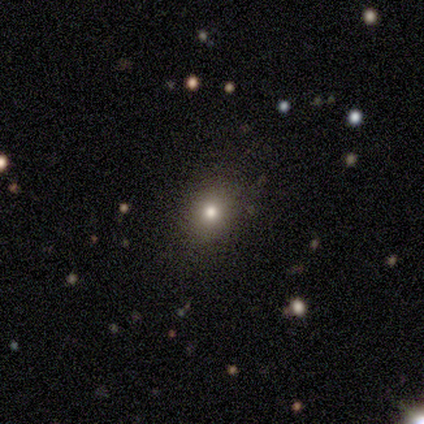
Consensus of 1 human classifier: smooth_or_featured: smooth (p=1.00)
how_rounded: in between (p=1.00)
merging: none (p=1.00)